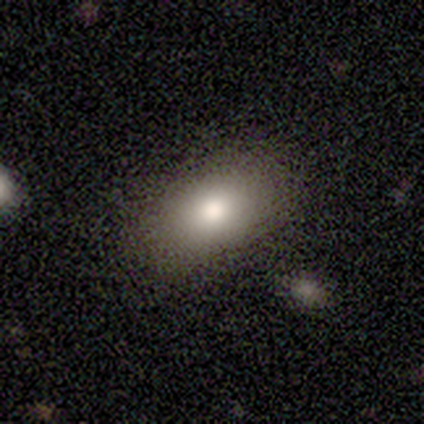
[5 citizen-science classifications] Overall: smooth (60%; featured or disk 40%). How rounded: in between (100%). Merging: none (80%).